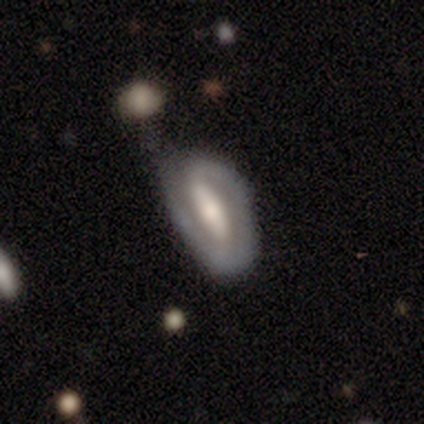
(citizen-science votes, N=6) Q: Smooth or featured?
A: featured or disk (83%); runner-up: smooth (17%)
Q: Edge-on disk?
A: no (100%)
Q: Bar?
A: strong (80%); runner-up: weak (20%)
Q: Spiral arms?
A: yes (60%); runner-up: no (40%)
Q: Spiral winding?
A: tight (33%); tied with: medium (33%); loose (33%)
Q: Spiral arm count?
A: 1 (67%); runner-up: 2 (33%)
Q: Bulge size?
A: large (40%); tied with: moderate (40%)
Q: Merging?
A: minor disturbance (67%); runner-up: none (33%)